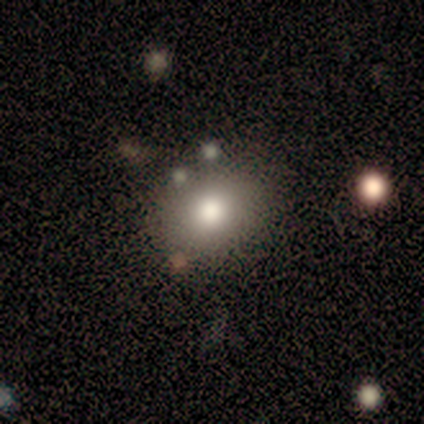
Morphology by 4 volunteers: smooth-or-featured: smooth: 75% | star or artifact: 25% | featured or disk: 0%
  how-rounded: in between: 100% | round: 0% | cigar-shaped: 0%
  merging: none: 67% | minor disturbance: 33% | major disturbance: 0% | merger: 0%